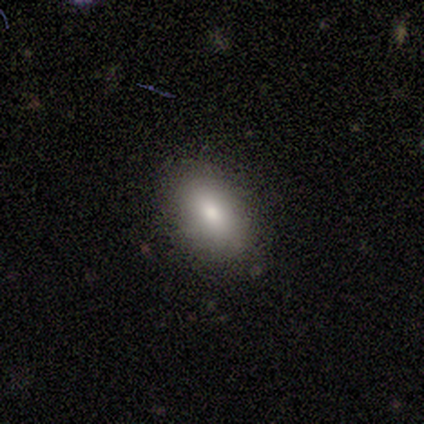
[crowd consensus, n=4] Smooth or featured? 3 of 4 (75%) said smooth. How rounded? 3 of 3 (100%) said in between. Merging? 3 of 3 (100%) said none.